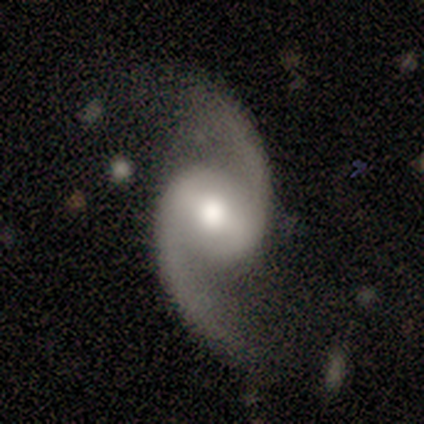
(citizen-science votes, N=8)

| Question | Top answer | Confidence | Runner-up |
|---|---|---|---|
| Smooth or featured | featured or disk | 88% | smooth (12%) |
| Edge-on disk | no | 100% | — |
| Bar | weak | 57% | no (29%) |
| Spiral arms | yes | 100% | — |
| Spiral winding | loose | 57% | medium (43%) |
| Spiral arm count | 2 | 86% | can't tell (14%) |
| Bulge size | moderate | 86% | large (14%) |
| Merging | none | 38% | tied: minor disturbance (38%) |